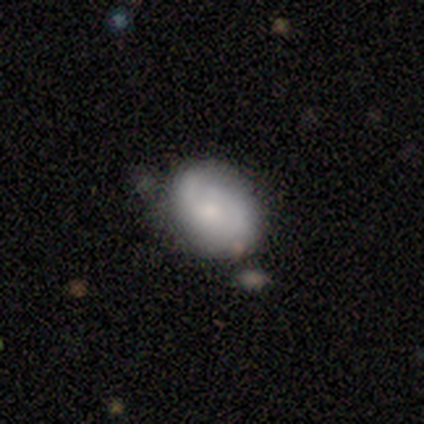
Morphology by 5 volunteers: featured or disk 60%, smooth 40%, star or artifact 0%. Down the decision tree: edge-on disk — no (100%); bar — no (100%); spiral arms — yes (67%); spiral arm count — 2 (100%); spiral winding — tight (50%, tied with medium); bulge size — moderate (33%, tied with small and none); merging — minor disturbance (60%).